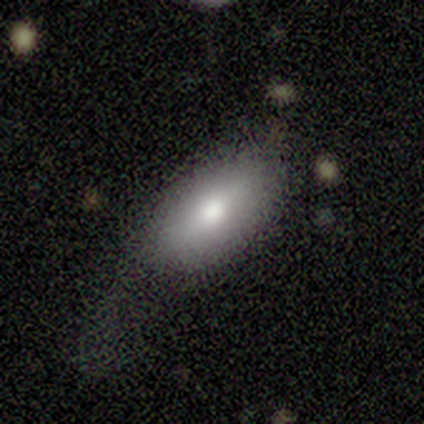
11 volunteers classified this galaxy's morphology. This appears to be a smooth galaxy with no disk features (91%) that is in between round and cigar-shaped (100%). Merging: minor disturbance (45%).